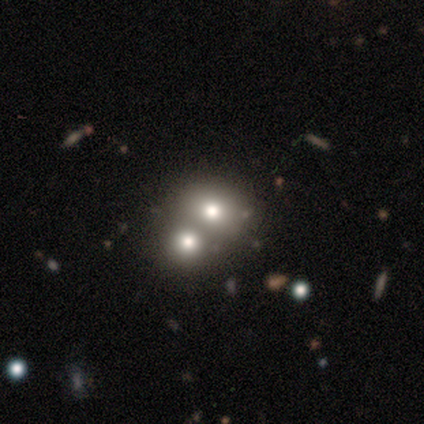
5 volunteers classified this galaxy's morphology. Q: Smooth or featured?
A: smooth (40%); tied with: featured or disk (40%)
Q: How rounded?
A: round (50%); tied with: in between (50%)
Q: Merging?
A: none (50%); tied with: merger (50%)